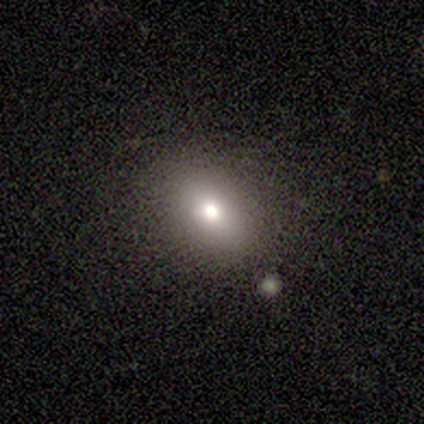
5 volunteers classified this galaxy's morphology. smooth_or_featured: smooth (p=0.80) [alt: star or artifact p=0.20]
how_rounded: in between (p=0.75) [alt: round p=0.25]
merging: none (p=1.00)